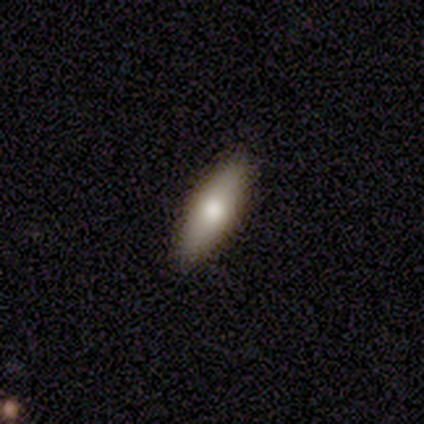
A smooth galaxy with no disk features (100%) that is in between round and cigar-shaped (71%). Merging: none (100%).